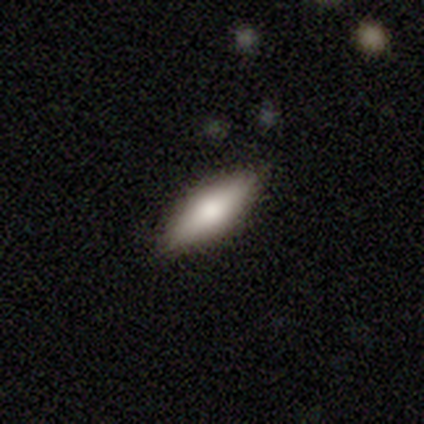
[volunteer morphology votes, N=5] Smooth or featured? smooth (60%)
How rounded? in between (67%)
Merging? none (100%)